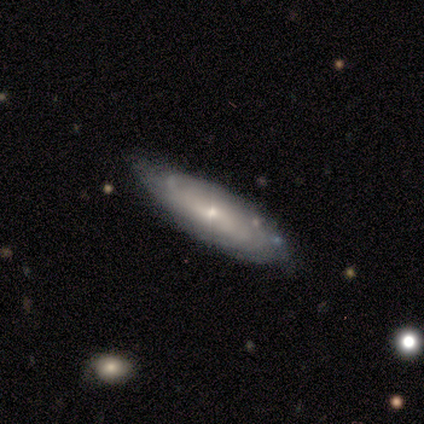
Smooth or featured?
  - featured or disk: 100% *
  - smooth: 0%
  - star or artifact: 0%
Edge-on disk?
  - no: 60% *
  - yes: 40%
Bar?
  - no: 67% *
  - strong: 33%
  - weak: 0%
Spiral arms?
  - yes: 100% *
  - no: 0%
Spiral winding?
  - tight: 100% *
  - medium: 0%
  - loose: 0%
Spiral arm count?
  - can't tell: 100% *
  - 1: 0%
  - 2: 0%
  - 3: 0%
  - 4: 0%
  - more than 4: 0%
Bulge size?
  - small: 100% *
  - dominant: 0%
  - large: 0%
  - moderate: 0%
  - none: 0%
Merging?
  - none: 80% *
  - major disturbance: 20%
  - minor disturbance: 0%
  - merger: 0%